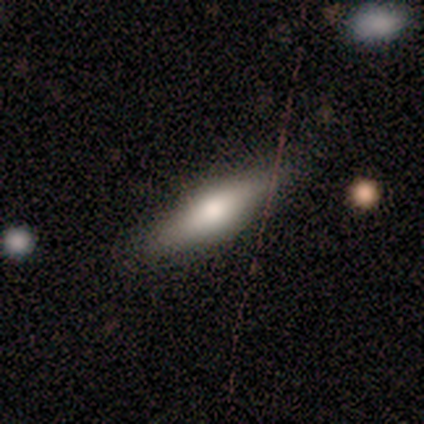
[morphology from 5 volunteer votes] Q: Smooth or featured?
A: smooth (60%); runner-up: featured or disk (40%)
Q: How rounded?
A: cigar-shaped (100%)
Q: Merging?
A: none (80%); runner-up: minor disturbance (20%)